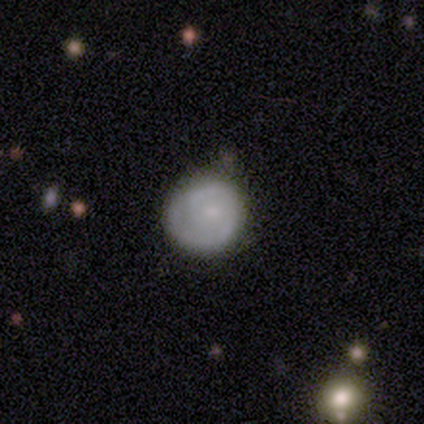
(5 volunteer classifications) A featured or disk galaxy (80%) with no bar (100%), 2 (50%, tied with can't tell) tight (50%, tied with medium) spiral arms (50%, tied with no) and a small central bulge (75%). Merging: none (60%).